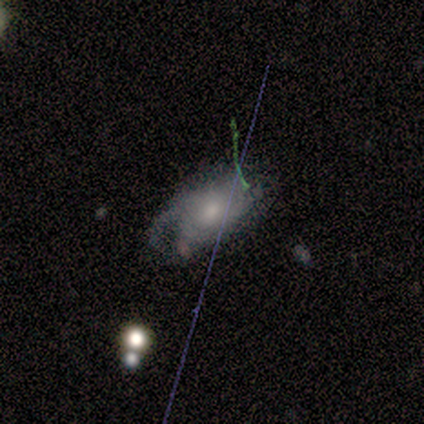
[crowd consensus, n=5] smooth-or-featured: smooth: 40% (tied) | featured or disk: 40% (tied) | star or artifact: 20%
  how-rounded: in between: 100% | round: 0% | cigar-shaped: 0%
  merging: none: 50% (tied) | major disturbance: 50% (tied) | minor disturbance: 0% | merger: 0%